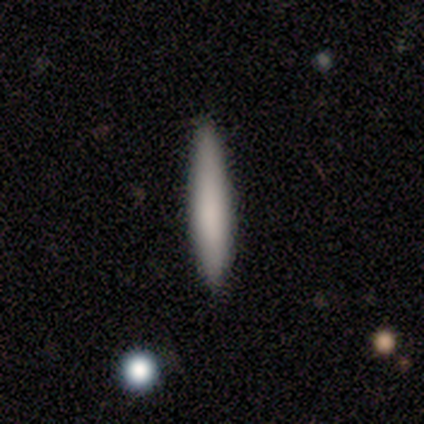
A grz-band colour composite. It shows a smooth galaxy with no disk features (71%) that is cigar-shaped (92%). Merging: none (76%).